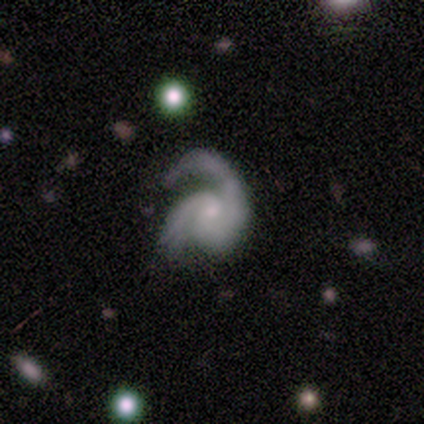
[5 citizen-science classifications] Q: Smooth or featured?
A: featured or disk (80%); runner-up: smooth (20%)
Q: Edge-on disk?
A: no (100%)
Q: Bar?
A: no (75%); runner-up: weak (25%)
Q: Spiral arms?
A: yes (75%); runner-up: no (25%)
Q: Spiral winding?
A: medium (67%); runner-up: loose (33%)
Q: Spiral arm count?
A: 2 (100%)
Q: Bulge size?
A: small (100%)
Q: Merging?
A: none (60%); runner-up: minor disturbance (20%)